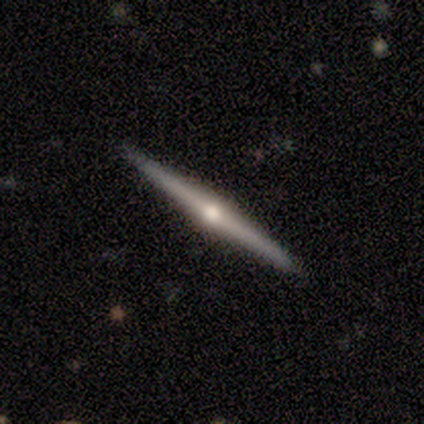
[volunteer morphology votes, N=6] Smooth or featured? 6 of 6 (100%) said featured or disk. Edge-on disk? 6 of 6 (100%) said yes. Edge-on bulge? 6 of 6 (100%) said rounded. Merging? 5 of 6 (83%) said none.